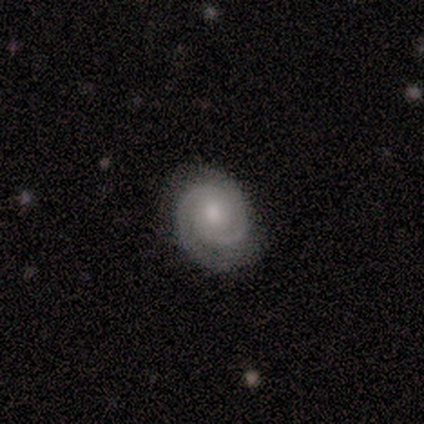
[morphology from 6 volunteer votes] smooth_or_featured: featured or disk (p=0.83) [alt: smooth p=0.17]
disk_edge_on: no (p=1.00)
bar: no (p=1.00)
has_spiral_arms: yes (p=1.00)
spiral_winding: tight (p=0.60) [alt: medium p=0.40]
spiral_arm_count: 2 (p=1.00)
bulge_size: moderate (p=0.60) [alt: small p=0.40]
merging: none (p=1.00)